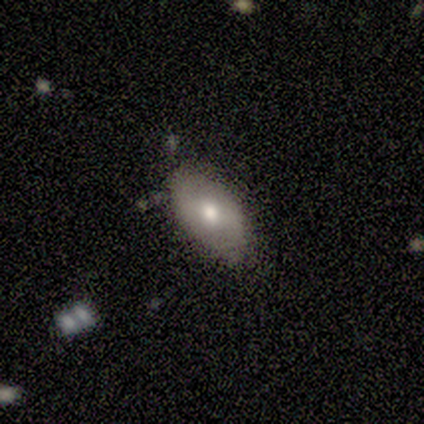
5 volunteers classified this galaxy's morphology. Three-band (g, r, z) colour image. It shows a smooth galaxy with no disk features (60%) that is in between round and cigar-shaped (100%). Merging: none (60%).